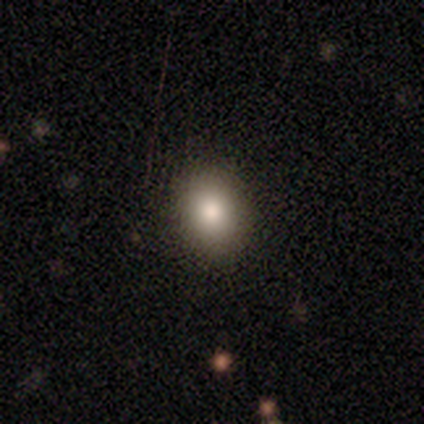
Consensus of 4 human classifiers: Volunteers were most divided on "smooth or featured" (2-way tie): smooth: 50%, featured or disk: 50%, star or artifact: 0%; "how rounded" (2-way tie): round: 50%, in between: 50%, cigar-shaped: 0%. More confident: merging — none (100%).